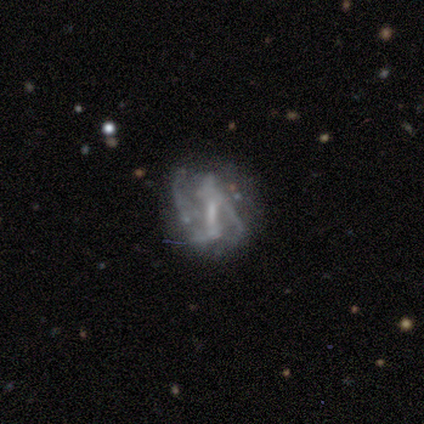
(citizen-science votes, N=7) Volunteers were most divided on "spiral winding" (2-way tie): tight: 50%, medium: 50%, loose: 0%; "bulge size" (2-way tie): small: 40%, none: 40%, moderate: 20%, dominant: 0%, large: 0%; "merging" (2-way tie): minor disturbance: 33%, merger: 33%, none: 17%, major disturbance: 17%. More confident: edge-on disk — no (100%); spiral arm count — 2 (100%); bar — strong (80%); spiral arms — yes (80%); smooth or featured — featured or disk (71%).